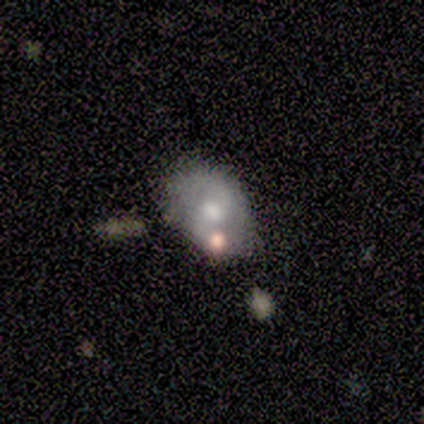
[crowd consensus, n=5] Volunteers were most divided on "smooth or featured": featured or disk: 60%, smooth: 40%, star or artifact: 0%. More confident: edge-on disk — no (100%); spiral arms — yes (100%); bulge size — moderate (100%); merging — none (80%); bar — no (67%); spiral winding — loose (67%); spiral arm count — 1 (67%).